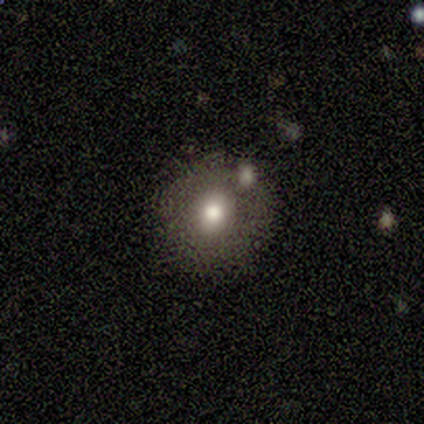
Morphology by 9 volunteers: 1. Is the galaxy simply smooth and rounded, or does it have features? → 67% smooth, 33% featured or disk, 0% star or artifact.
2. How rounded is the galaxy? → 83% round, 17% in between, 0% cigar-shaped.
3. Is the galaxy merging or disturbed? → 67% none, 22% merger, 11% major disturbance, 0% minor disturbance.